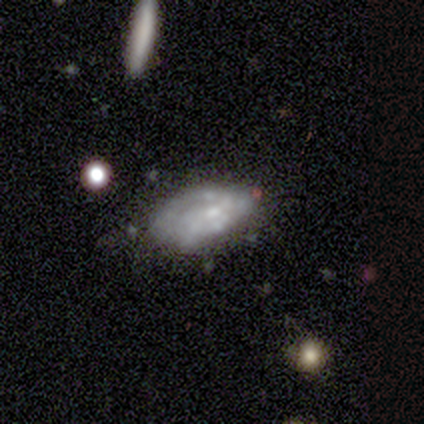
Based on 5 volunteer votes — Overall: featured or disk (80%). Edge-on disk: no (100%). Bar: no (75%). Spiral arms: yes (75%). Spiral arm count: can't tell (100%). Spiral winding: loose (67%; medium 33%). Bulge size: small (50%; moderate 25%). Merging: none (40%, tied with minor disturbance).